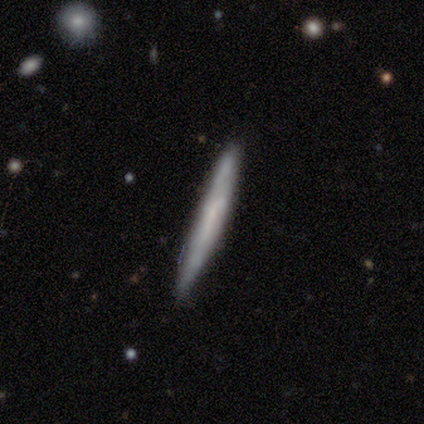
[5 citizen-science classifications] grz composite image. It shows a featured or disk galaxy (80%) viewed edge-on (100%) with no central bulge (50%). Merging: none (100%).